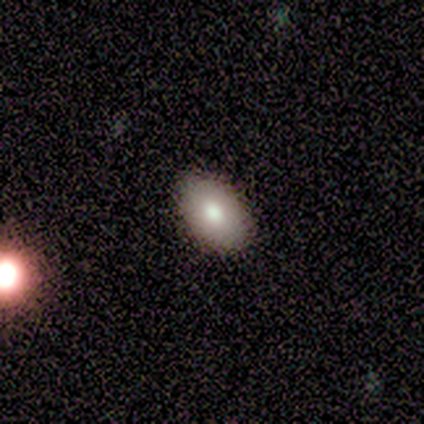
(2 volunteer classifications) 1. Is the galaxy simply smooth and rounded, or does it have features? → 100% smooth, 0% featured or disk, 0% star or artifact.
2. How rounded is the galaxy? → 100% in between, 0% round, 0% cigar-shaped.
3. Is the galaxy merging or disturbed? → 100% none, 0% minor disturbance, 0% major disturbance, 0% merger.